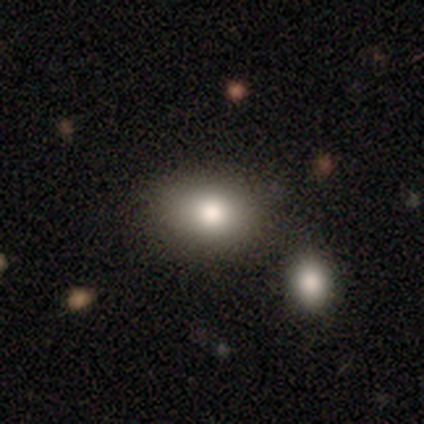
Morphology: type=smooth (85%); roundness=in between (67%); merging=none (79%).